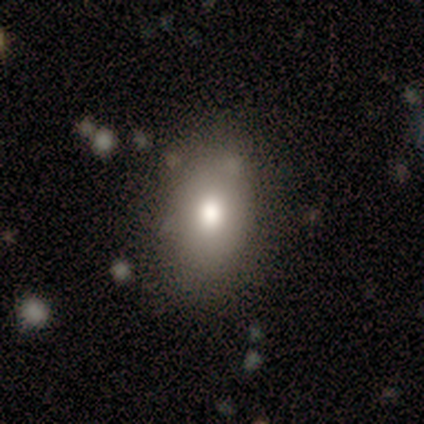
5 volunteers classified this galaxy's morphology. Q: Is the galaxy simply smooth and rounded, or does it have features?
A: smooth — 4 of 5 (80%).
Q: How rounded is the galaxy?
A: in between — 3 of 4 (75%).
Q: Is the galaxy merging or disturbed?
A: none — 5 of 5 (100%).